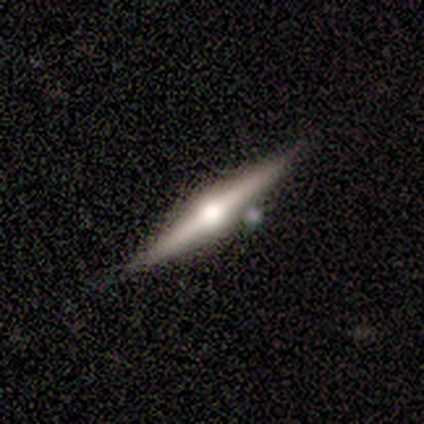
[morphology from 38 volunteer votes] smooth_or_featured: featured or disk (p=0.89) [alt: smooth p=0.08]
disk_edge_on: yes (p=1.00)
edge_on_bulge: rounded (p=0.97) [alt: none p=0.03]
merging: none (p=0.84) [alt: minor disturbance p=0.11]